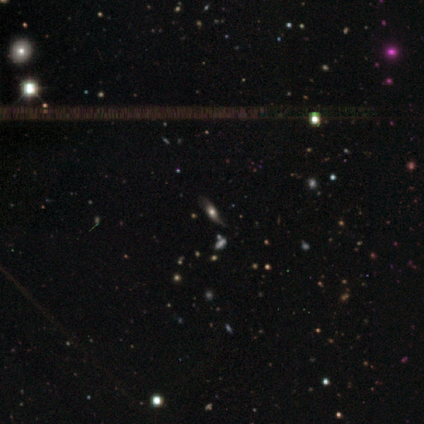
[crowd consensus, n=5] This appears to be a featured or disk galaxy (60%) with no bar (67%), 1 (50%, tied with can't tell) medium (50%, tied with loose) spiral arms (67%) and a large central bulge (67%). Merging: none (67%).